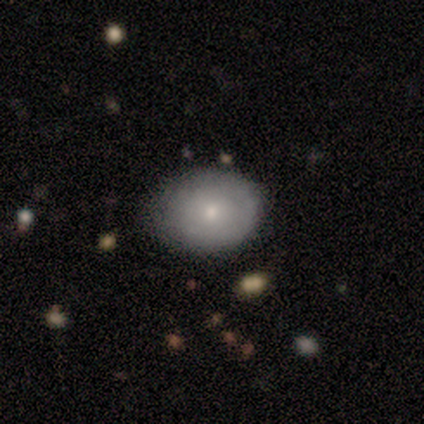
A smooth galaxy with no disk features (75%) that is round (50%, tied with in between). Merging: none (88%).